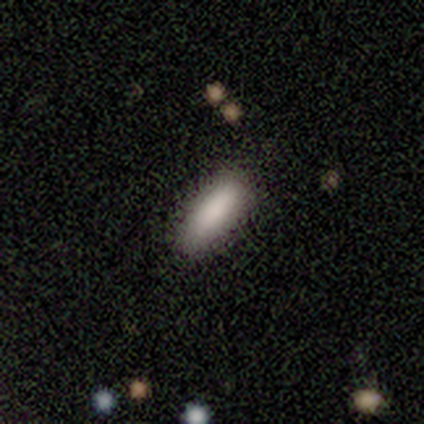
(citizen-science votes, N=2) smooth_or_featured: smooth (p=1.00)
how_rounded: in between (p=1.00)
merging: none (p=1.00)